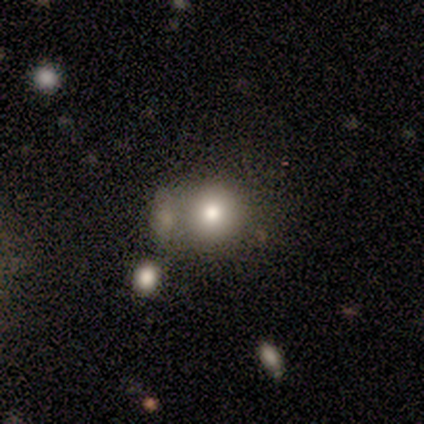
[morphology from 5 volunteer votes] A smooth galaxy with no disk features (60%) that is round (100%).

Vote fractions:
- Smooth or featured? smooth: 60% / featured or disk: 40% / star or artifact: 0%
- How rounded? round: 100% / in between: 0% / cigar-shaped: 0%
- Merging? merger: 60% / none: 20% / minor disturbance: 20% / major disturbance: 0%